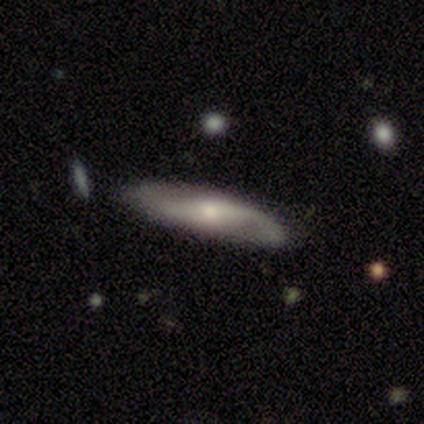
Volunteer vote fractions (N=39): Smooth or featured? featured or disk (69%)
Edge-on disk? no (67%)
Bar? no (56%)
Spiral arms? yes (89%)
Spiral winding? loose (50%)
Spiral arm count? 2 (94%)
Bulge size? small (61%)
Merging? none (66%)